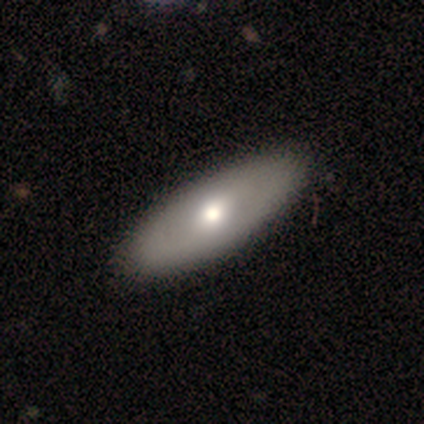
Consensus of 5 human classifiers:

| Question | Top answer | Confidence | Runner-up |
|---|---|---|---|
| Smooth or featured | smooth | 60% | featured or disk (40%) |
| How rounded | in between | 100% | — |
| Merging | none | 100% | — |